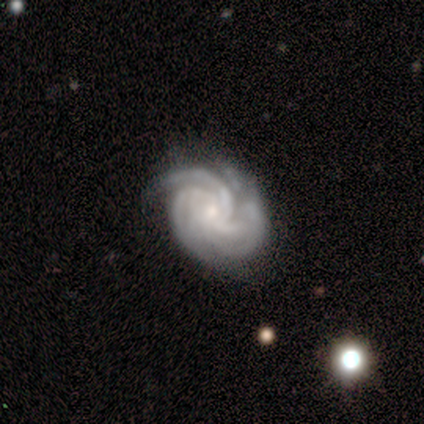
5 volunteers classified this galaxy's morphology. A featured or disk galaxy (60%) with no bar (100%), 1 (33%, tied with 3 and more than 4) tight (67%) spiral arms (100%) and a small central bulge (100%). Merging: none (67%).